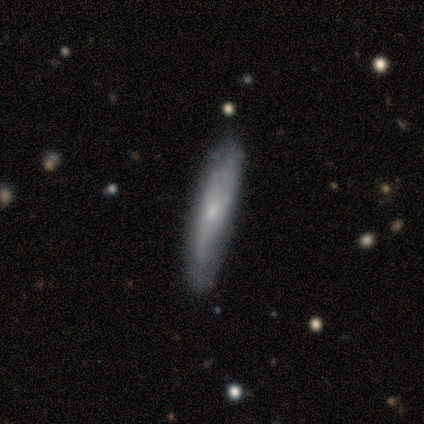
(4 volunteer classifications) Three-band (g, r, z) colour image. It shows a smooth galaxy with no disk features (50%, tied with featured or disk) that is cigar-shaped (100%). Merging: none (75%).